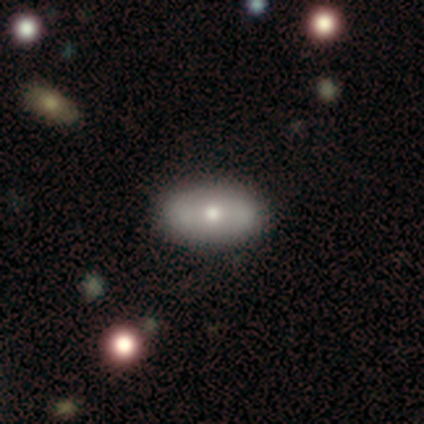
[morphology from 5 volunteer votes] smooth_or_featured: smooth (p=0.40) [tied with: featured or disk p=0.40]
how_rounded: round (p=0.50) [tied with: in between p=0.50]
merging: none (p=0.50) [alt: major disturbance p=0.25]